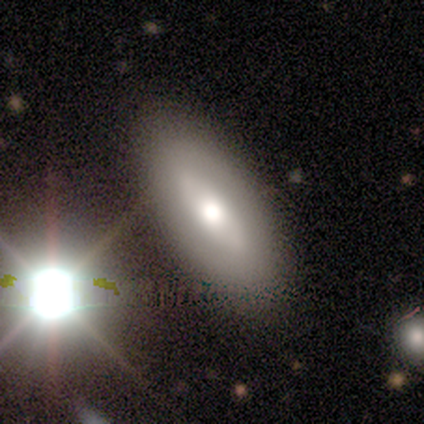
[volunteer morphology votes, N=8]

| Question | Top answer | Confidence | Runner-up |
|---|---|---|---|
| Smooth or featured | smooth | 50% | featured or disk (38%) |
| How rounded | in between | 100% | — |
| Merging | none | 86% | major disturbance (14%) |